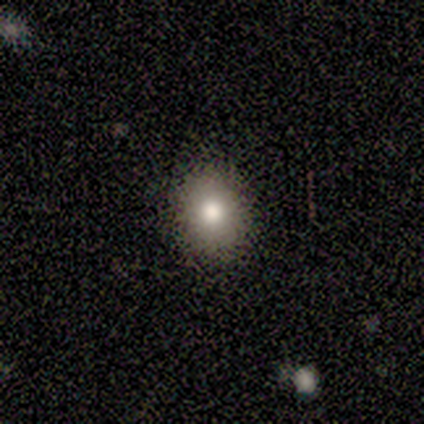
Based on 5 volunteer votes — smooth-or-featured: smooth: 100% | featured or disk: 0% | star or artifact: 0%
  how-rounded: in between: 60% | round: 40% | cigar-shaped: 0%
  merging: none: 100% | minor disturbance: 0% | major disturbance: 0% | merger: 0%